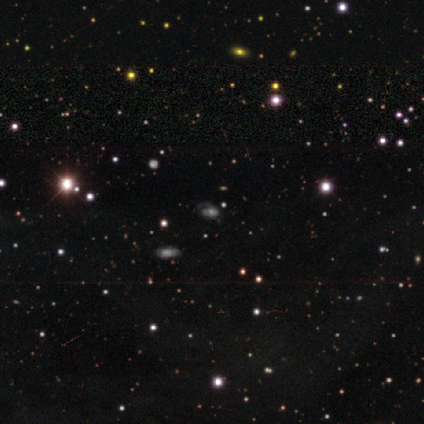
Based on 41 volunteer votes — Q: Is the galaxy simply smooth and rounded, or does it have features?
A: star or artifact — 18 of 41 (44%).